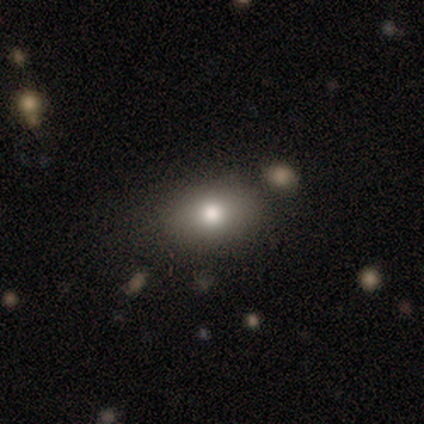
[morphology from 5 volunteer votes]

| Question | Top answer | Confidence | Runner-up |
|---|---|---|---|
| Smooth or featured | smooth | 80% | featured or disk (20%) |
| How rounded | in between | 75% | round (25%) |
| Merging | minor disturbance | 40% | tied: merger (40%) |